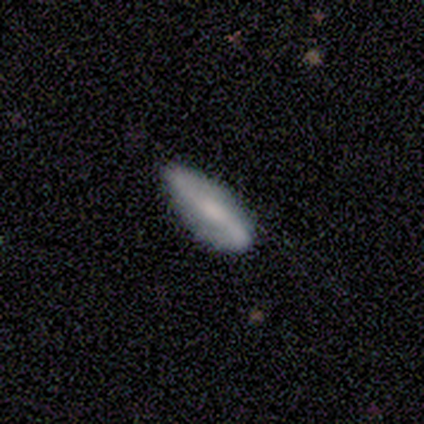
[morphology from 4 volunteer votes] Volunteers were most divided on "how rounded": in between: 67%, cigar-shaped: 33%, round: 0%. More confident: merging — none (100%); smooth or featured — smooth (75%).